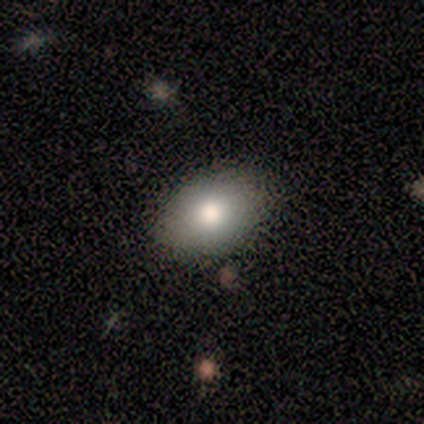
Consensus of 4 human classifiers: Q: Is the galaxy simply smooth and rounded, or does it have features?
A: smooth — 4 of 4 (100%).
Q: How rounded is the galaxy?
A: in between — 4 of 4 (100%).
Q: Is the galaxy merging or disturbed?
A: none — 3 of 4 (75%).